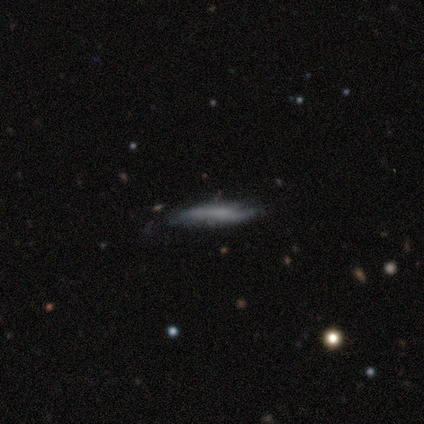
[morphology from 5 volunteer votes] Smooth or featured? 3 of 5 (60%) said featured or disk. Edge-on disk? 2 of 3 (67%) said yes. Edge-on bulge? 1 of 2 (50%, tied with rounded) said none. Merging? 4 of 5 (80%) said none.